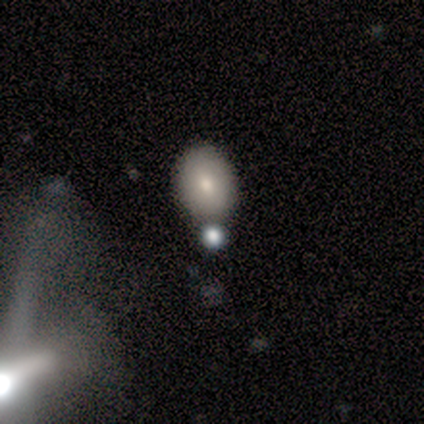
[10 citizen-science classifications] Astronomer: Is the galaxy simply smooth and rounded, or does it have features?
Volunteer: smooth — 80%.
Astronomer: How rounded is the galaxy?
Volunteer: in between — 88%.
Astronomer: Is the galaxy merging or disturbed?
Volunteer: none — 89%.